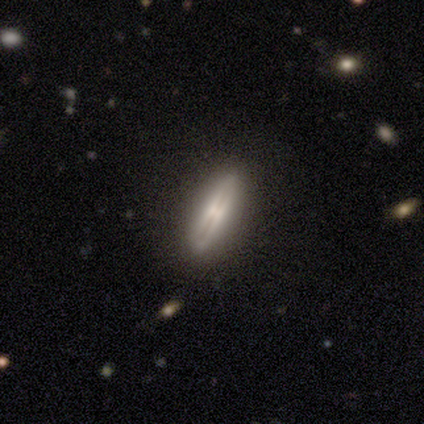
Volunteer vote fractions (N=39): Q: Smooth or featured?
A: featured or disk (64%); runner-up: smooth (33%)
Q: Edge-on disk?
A: yes (88%); runner-up: no (12%)
Q: Edge-on bulge?
A: rounded (68%); runner-up: none (18%)
Q: Merging?
A: none (87%); runner-up: minor disturbance (5%)